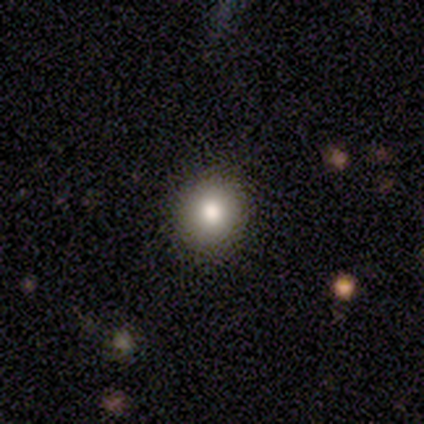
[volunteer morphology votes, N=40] Smooth or featured?
  - smooth: 68% *
  - featured or disk: 25%
  - star or artifact: 8%
How rounded?
  - round: 93% *
  - in between: 7%
  - cigar-shaped: 0%
Merging?
  - none: 92% *
  - minor disturbance: 5%
  - major disturbance: 3%
  - merger: 0%